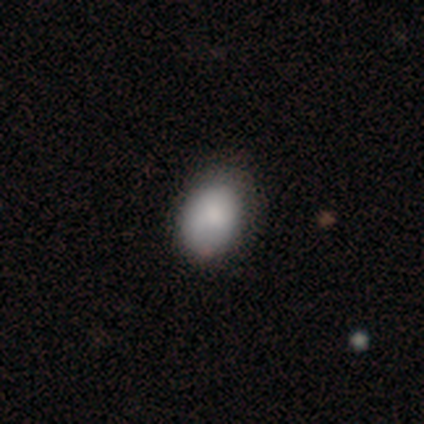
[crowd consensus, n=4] A smooth galaxy with no disk features (100%) that is in between round and cigar-shaped (100%). Merging: none (50%, tied with minor disturbance).